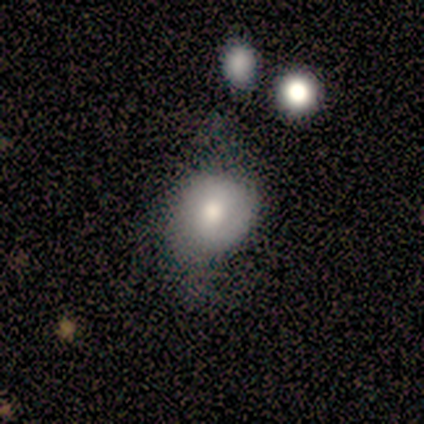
smooth_or_featured: smooth (p=0.75) [alt: featured or disk p=0.25]
how_rounded: round (p=0.67) [alt: cigar-shaped p=0.33]
merging: none (p=0.50) [tied with: minor disturbance p=0.50]